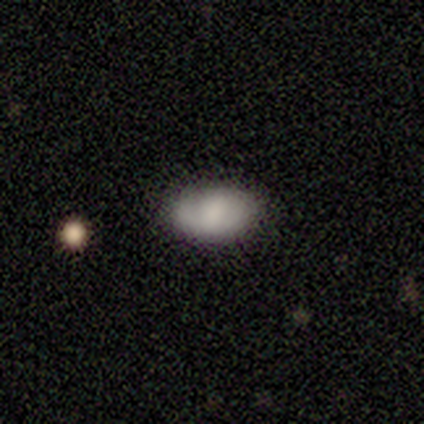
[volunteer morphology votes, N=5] Smooth or featured? smooth (80%)
How rounded? in between (100%)
Merging? none (100%)